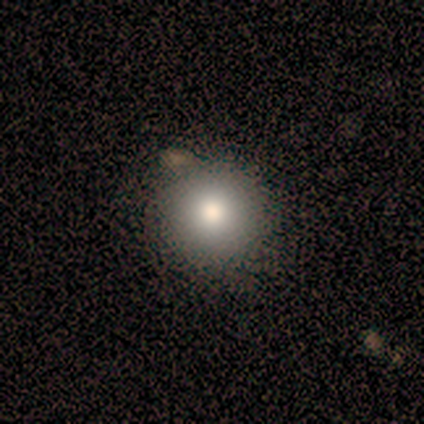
Smooth or featured? 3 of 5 (60%) said smooth. How rounded? 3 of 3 (100%) said round. Merging? 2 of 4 (50%) said none.